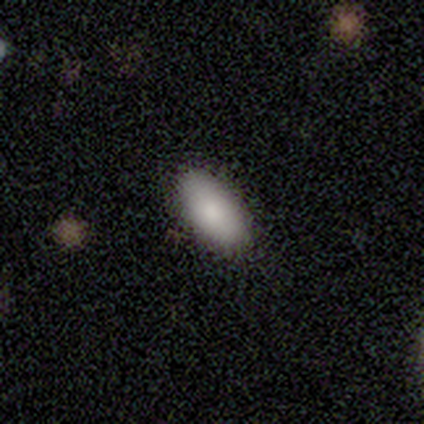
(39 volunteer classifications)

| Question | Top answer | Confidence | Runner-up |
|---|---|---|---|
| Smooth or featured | smooth | 92% | featured or disk (5%) |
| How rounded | in between | 94% | cigar-shaped (6%) |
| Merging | none | 84% | minor disturbance (13%) |